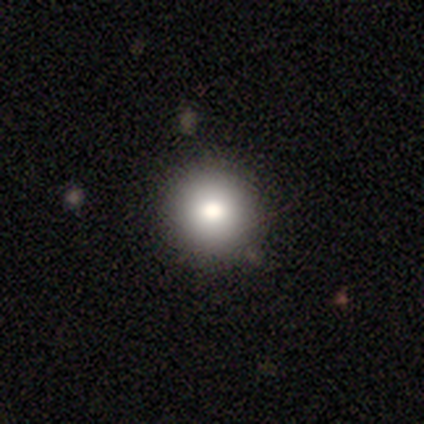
Smooth or featured?
  - smooth: 92% *
  - star or artifact: 8%
  - featured or disk: 0%
How rounded?
  - round: 91% *
  - in between: 9%
  - cigar-shaped: 0%
Merging?
  - none: 73% *
  - minor disturbance: 27%
  - major disturbance: 0%
  - merger: 0%